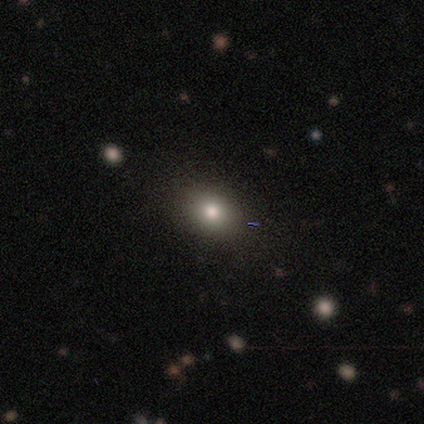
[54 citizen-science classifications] This is clearly a smooth galaxy (83%). How rounded: possibly round (49%). Merging: clearly none (90%).